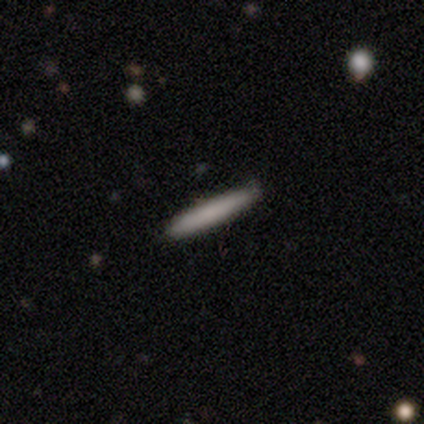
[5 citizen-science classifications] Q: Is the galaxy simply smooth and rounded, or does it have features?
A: smooth — 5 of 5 (100%).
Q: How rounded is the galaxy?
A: cigar-shaped — 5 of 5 (100%).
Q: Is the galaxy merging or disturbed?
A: none — 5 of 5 (100%).